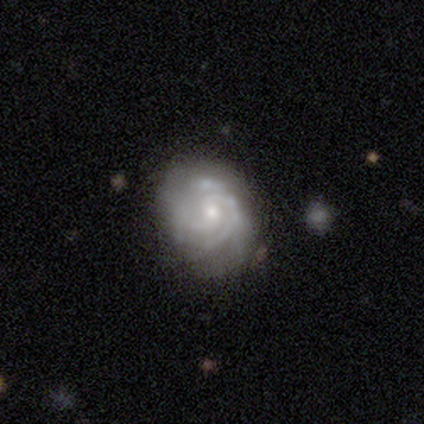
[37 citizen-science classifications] Q: Smooth or featured?
A: featured or disk (86%); runner-up: smooth (8%)
Q: Edge-on disk?
A: no (100%)
Q: Bar?
A: no (66%); runner-up: weak (34%)
Q: Spiral arms?
A: yes (97%); runner-up: no (3%)
Q: Spiral winding?
A: tight (65%); runner-up: medium (35%)
Q: Spiral arm count?
A: can't tell (48%); runner-up: 2 (29%)
Q: Bulge size?
A: small (56%); runner-up: moderate (34%)
Q: Merging?
A: none (69%); runner-up: minor disturbance (17%)